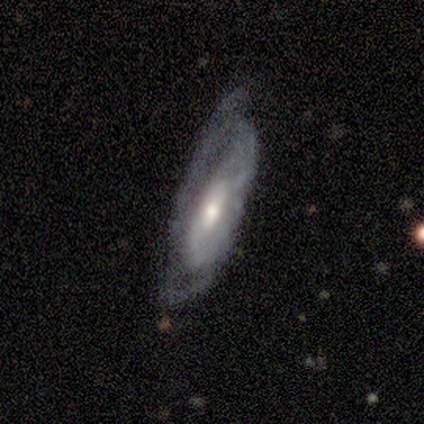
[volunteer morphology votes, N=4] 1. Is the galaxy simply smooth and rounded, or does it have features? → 75% featured or disk, 25% smooth, 0% star or artifact.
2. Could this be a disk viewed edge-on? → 67% no, 33% yes.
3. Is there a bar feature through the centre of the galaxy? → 50% weak (tied), 50% no (tied), 0% strong.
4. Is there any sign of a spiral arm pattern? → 50% yes (tied), 50% no (tied).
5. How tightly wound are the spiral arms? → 100% medium, 0% tight, 0% loose.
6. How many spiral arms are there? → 100% can't tell, 0% 1, 0% 2, 0% 3, 0% 4, 0% more than 4.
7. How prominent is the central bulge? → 50% moderate (tied), 50% small (tied), 0% dominant, 0% large, 0% none.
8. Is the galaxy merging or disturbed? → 75% none, 25% major disturbance, 0% minor disturbance, 0% merger.